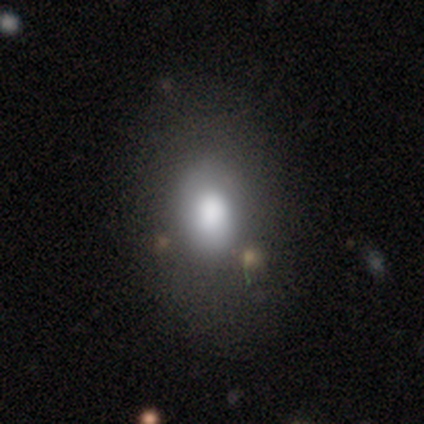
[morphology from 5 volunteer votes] This appears to be a smooth galaxy with no disk features (80%) that is in between round and cigar-shaped (100%). Merging: none (100%).